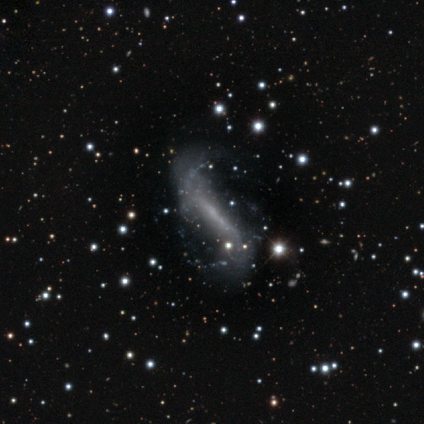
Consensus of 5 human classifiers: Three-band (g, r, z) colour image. It shows a featured or disk galaxy (80%) with a strong bar (67%), 2 (67%) loose (100%) spiral arms (100%) and no central bulge (100%). Merging: none (50%).